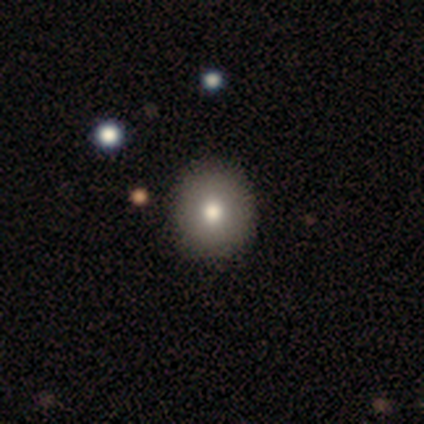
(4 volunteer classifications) This appears to be a featured or disk galaxy (75%) with no bar (100%), no spiral arms (100%) and a moderate central bulge (67%). Merging: none (75%).